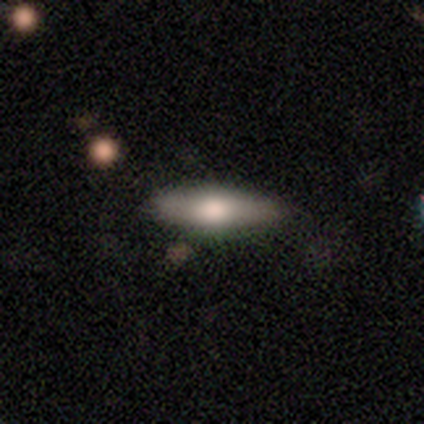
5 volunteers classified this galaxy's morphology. Q: Smooth or featured?
A: featured or disk (60%); runner-up: smooth (40%)
Q: Edge-on disk?
A: yes (100%)
Q: Edge-on bulge?
A: rounded (100%)
Q: Merging?
A: none (100%)